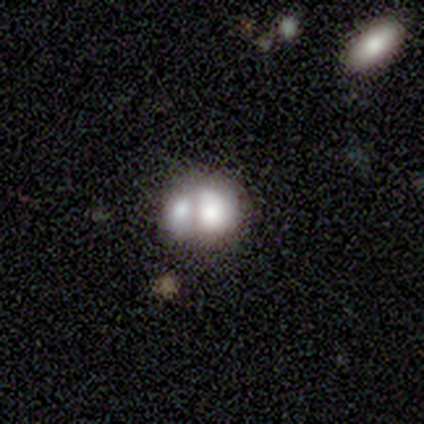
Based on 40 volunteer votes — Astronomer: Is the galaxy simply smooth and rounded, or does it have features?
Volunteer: smooth — 40%, tied with featured or disk at 40%.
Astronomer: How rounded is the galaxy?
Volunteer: round — 50%, tied with in between at 50%.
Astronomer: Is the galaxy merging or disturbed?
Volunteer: merger — 69%.